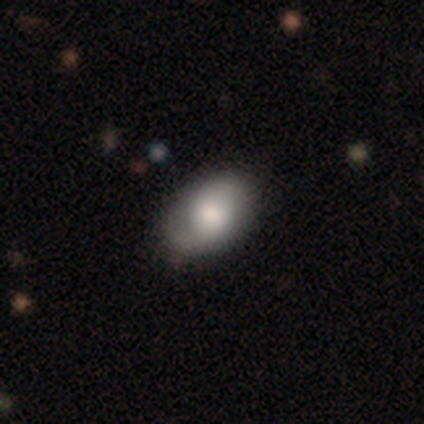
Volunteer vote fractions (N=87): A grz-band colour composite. It shows a smooth galaxy with no disk features (59%) that is in between round and cigar-shaped (86%). Merging: none (81%).